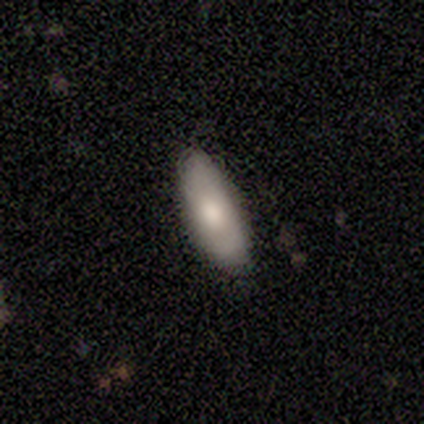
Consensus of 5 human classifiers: Q: Smooth or featured?
A: smooth (60%); runner-up: featured or disk (40%)
Q: How rounded?
A: in between (100%)
Q: Merging?
A: none (80%); runner-up: minor disturbance (20%)